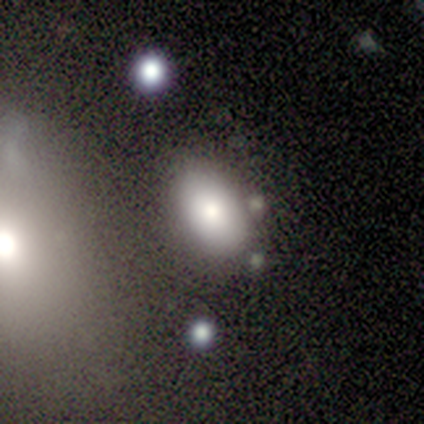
Overall: smooth (60%; featured or disk 20%). How rounded: in between (100%). Merging: none (50%; minor disturbance 25%).